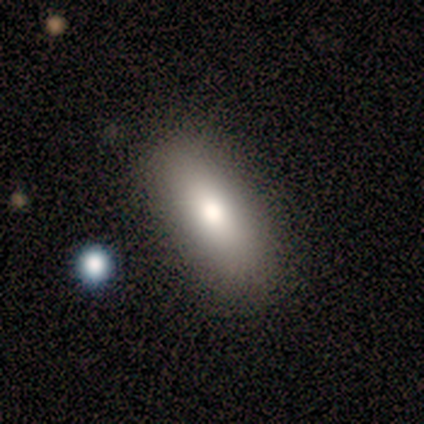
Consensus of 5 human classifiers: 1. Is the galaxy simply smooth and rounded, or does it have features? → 80% smooth, 20% featured or disk, 0% star or artifact.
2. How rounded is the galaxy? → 75% in between, 25% cigar-shaped, 0% round.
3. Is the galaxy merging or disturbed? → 80% none, 20% minor disturbance, 0% major disturbance, 0% merger.